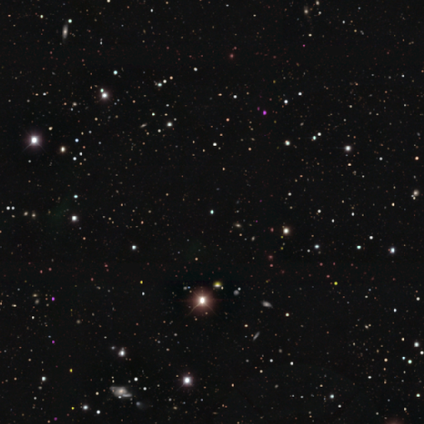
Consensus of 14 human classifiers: Smooth or featured?
  - star or artifact: 93% *
  - smooth: 7%
  - featured or disk: 0%